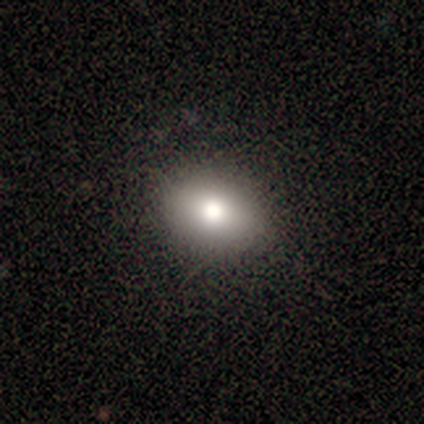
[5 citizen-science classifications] Overall: smooth (80%). How rounded: round (50%, tied with in between). Merging: none (50%, tied with minor disturbance).